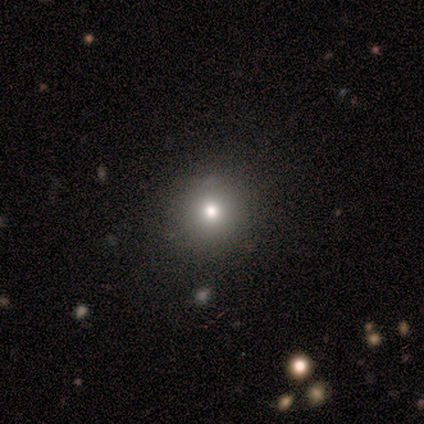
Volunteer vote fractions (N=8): Smooth or featured? smooth (62%)
How rounded? round (80%)
Merging? none (67%)